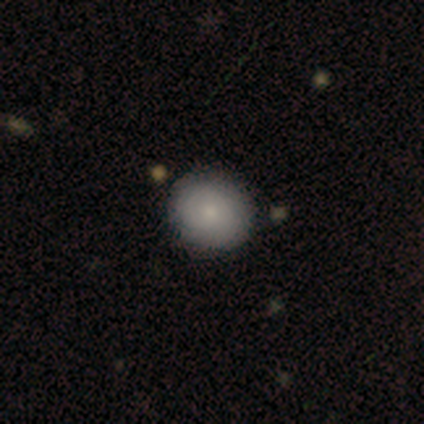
Q: Smooth or featured?
A: smooth (60%); runner-up: featured or disk (40%)
Q: How rounded?
A: round (67%); runner-up: in between (33%)
Q: Merging?
A: none (80%); runner-up: minor disturbance (20%)